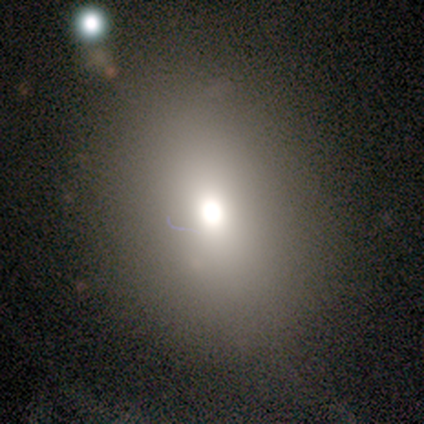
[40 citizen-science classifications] smooth_or_featured: smooth (p=0.75) [alt: star or artifact p=0.15]
how_rounded: in between (p=0.53) [alt: round p=0.43]
merging: none (p=0.53) [alt: minor disturbance p=0.35]